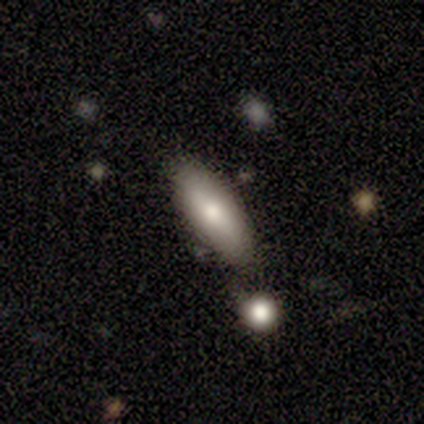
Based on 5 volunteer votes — Smooth or featured? 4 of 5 (80%) said smooth. How rounded? 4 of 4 (100%) said in between. Merging? 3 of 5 (60%) said none.